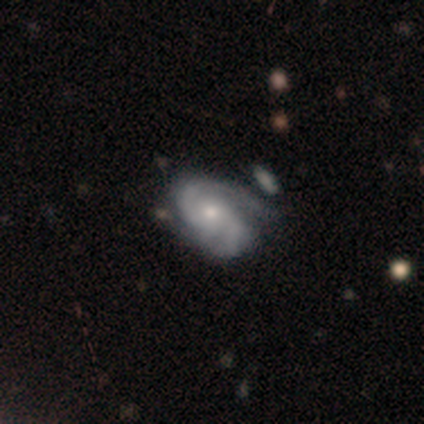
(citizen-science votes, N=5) smooth_or_featured: featured or disk (p=0.80) [alt: star or artifact p=0.20]
disk_edge_on: no (p=1.00)
bar: weak (p=0.50) [tied with: no p=0.50]
has_spiral_arms: yes (p=1.00)
spiral_winding: tight (p=0.50) [tied with: medium p=0.50]
spiral_arm_count: 2 (p=0.75) [alt: can't tell p=0.25]
bulge_size: small (p=1.00)
merging: none (p=0.50) [tied with: minor disturbance p=0.50]